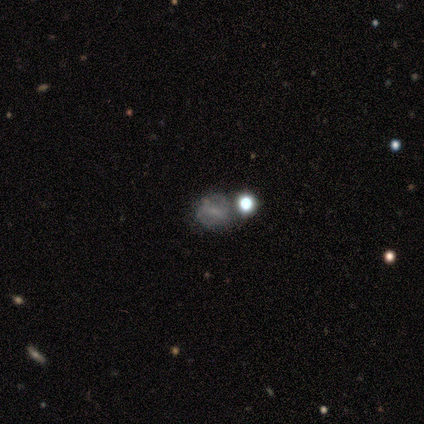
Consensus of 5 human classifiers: Smooth or featured? featured or disk (60%)
Edge-on disk? no (100%)
Bar? weak (67%)
Spiral arms? yes (67%)
Spiral winding? loose (100%)
Spiral arm count? 2 (50%, tied with can't tell)
Bulge size? small (67%)
Merging? none (75%)